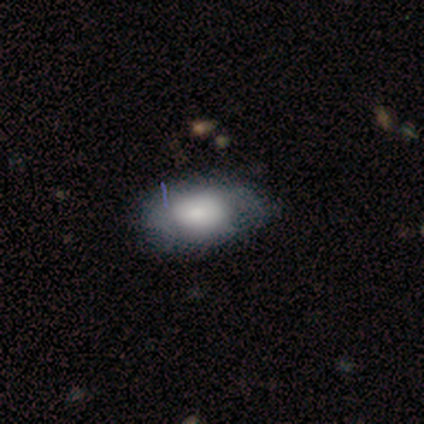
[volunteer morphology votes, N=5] smooth_or_featured: smooth (p=0.80) [alt: featured or disk p=0.20]
how_rounded: in between (p=1.00)
merging: none (p=0.60) [alt: minor disturbance p=0.40]